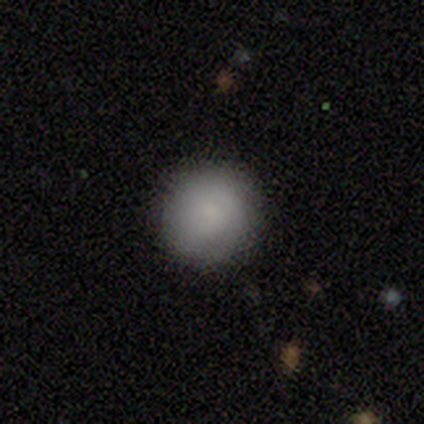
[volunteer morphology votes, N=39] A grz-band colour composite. It shows a smooth galaxy with no disk features (79%) that is round (87%). Merging: none (84%).